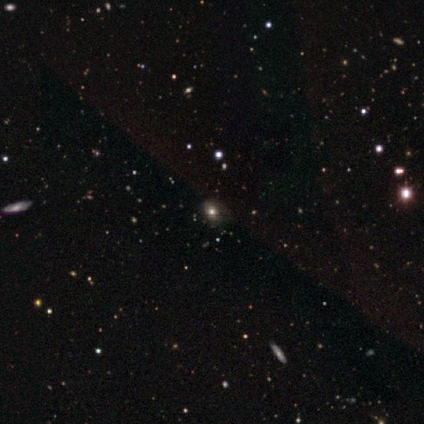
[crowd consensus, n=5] Overall: star or artifact (60%; smooth 40%).